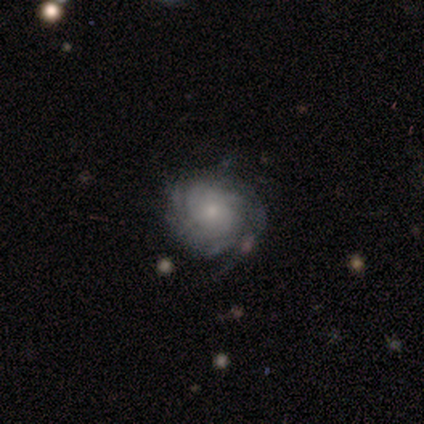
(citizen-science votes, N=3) A featured or disk galaxy (67%) with no bar (100%), more than 4 (50%, tied with can't tell) tight (100%) spiral arms (100%) and a small central bulge (100%). Merging: none (100%).